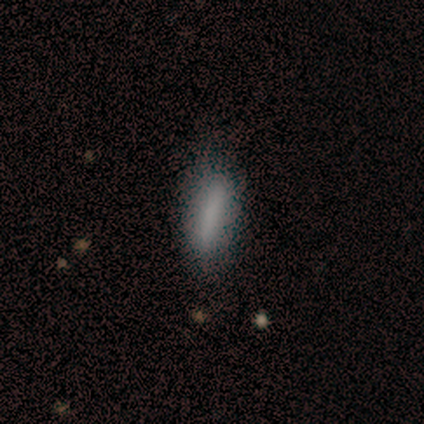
A smooth galaxy with no disk features (80%) that is in between round and cigar-shaped (50%, tied with cigar-shaped). Merging: none (80%).